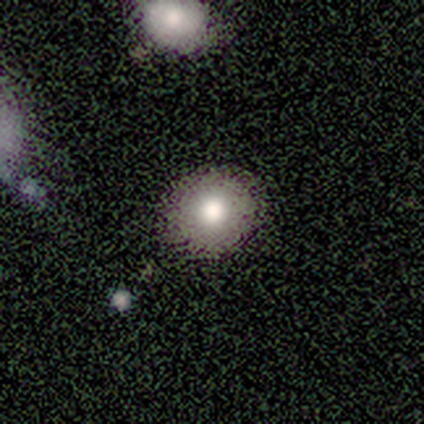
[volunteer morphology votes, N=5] Smooth or featured? 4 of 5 (80%) said smooth. How rounded? 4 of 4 (100%) said round. Merging? 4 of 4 (100%) said none.